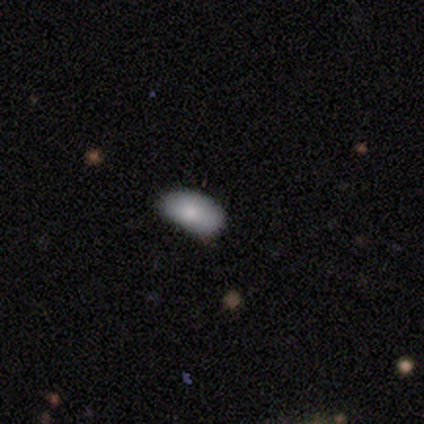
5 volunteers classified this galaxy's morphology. Smooth or featured? 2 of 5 (40%, tied with star or artifact) said featured or disk. Edge-on disk? 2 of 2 (100%) said no. Bar? 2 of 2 (100%) said no. Spiral arms? 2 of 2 (100%) said no. Bulge size? 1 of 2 (50%, tied with moderate) said large. Merging? 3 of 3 (100%) said none.